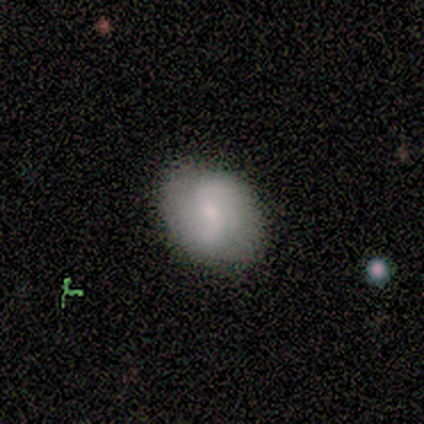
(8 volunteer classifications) Volunteers were most divided on "smooth or featured" (2-way tie): smooth: 50%, featured or disk: 50%, star or artifact: 0%. More confident: merging — none (100%); how rounded — in between (75%).